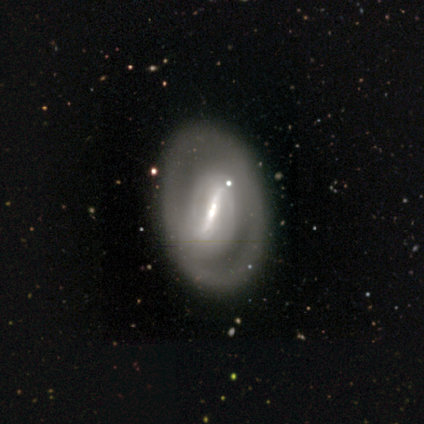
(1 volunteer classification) Consensus on every question: smooth or featured — featured or disk (100%); edge-on disk — no (100%); bar — strong (100%); spiral arms — yes (100%); spiral winding — medium (100%); spiral arm count — can't tell (100%); bulge size — moderate (100%); merging — none (100%).